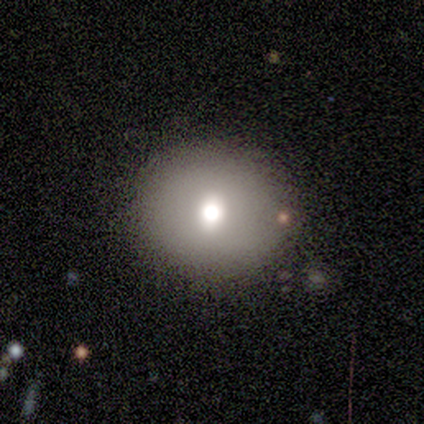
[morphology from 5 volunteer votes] Smooth or featured: smooth — 80% (featured or disk — 20%)
How rounded: round — 100%
Merging: none — 80% (minor disturbance — 20%)